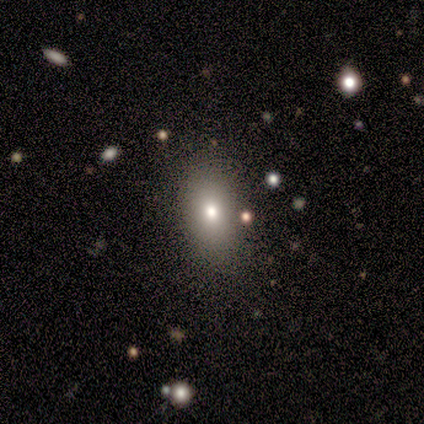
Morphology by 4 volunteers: Q: Smooth or featured?
A: smooth (100%)
Q: How rounded?
A: in between (100%)
Q: Merging?
A: none (50%); runner-up: minor disturbance (25%)